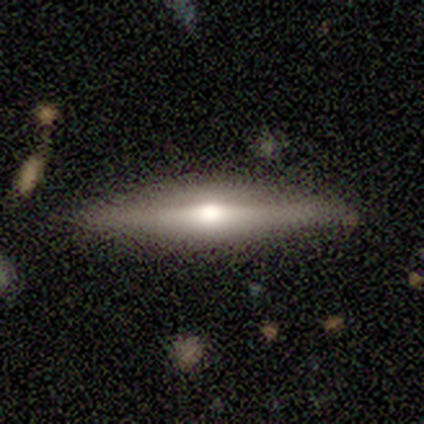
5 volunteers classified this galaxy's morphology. This appears to be a featured or disk galaxy (80%) viewed edge-on (100%) with a rounded central bulge (75%). Merging: none (80%).